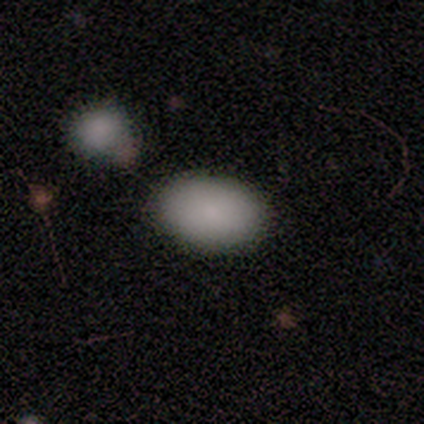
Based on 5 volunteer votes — Q: Smooth or featured?
A: smooth (80%); runner-up: featured or disk (20%)
Q: How rounded?
A: round (50%); tied with: in between (50%)
Q: Merging?
A: none (80%); runner-up: minor disturbance (20%)